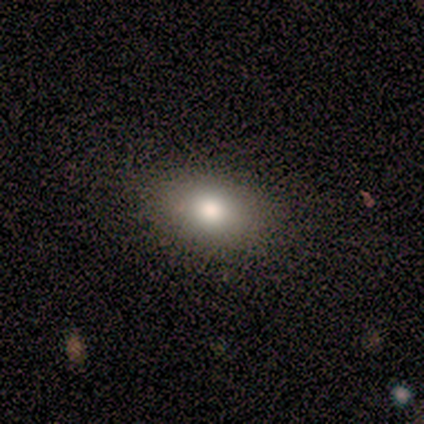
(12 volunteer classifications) Morphology: type=smooth (58%); roundness=in between (57%); merging=none (88%).